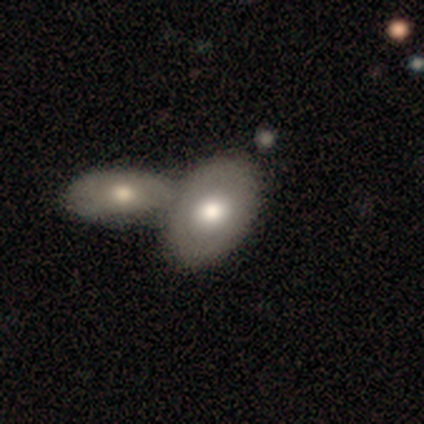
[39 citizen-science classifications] Smooth or featured? 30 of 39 (77%) said smooth. How rounded? 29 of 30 (97%) said in between. Merging? 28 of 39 (72%) said merger.